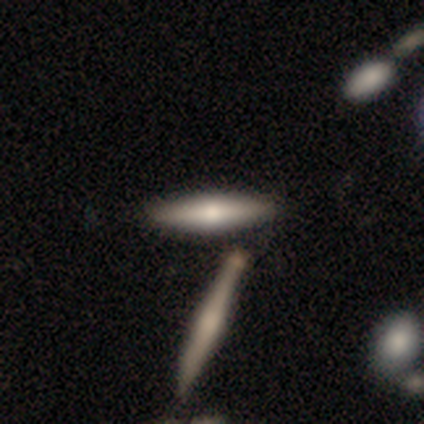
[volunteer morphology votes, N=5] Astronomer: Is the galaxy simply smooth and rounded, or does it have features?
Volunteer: featured or disk — 60% (runner-up: smooth, 40%).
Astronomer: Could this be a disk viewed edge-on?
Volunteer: yes — 100%.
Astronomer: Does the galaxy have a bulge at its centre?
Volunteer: rounded — 100%.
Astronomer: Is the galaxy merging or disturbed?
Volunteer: none — 60% (runner-up: merger, 40%).